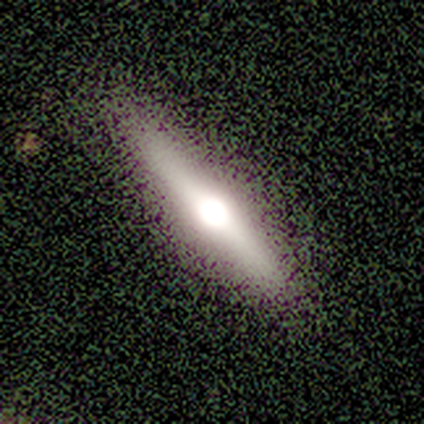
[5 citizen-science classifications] Consensus on every question: smooth or featured — featured or disk (100%); edge-on disk — yes (100%); edge-on bulge — rounded (100%); merging — none (100%).